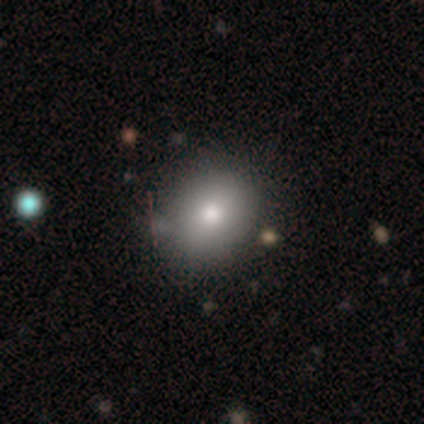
Smooth or featured? 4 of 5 (80%) said smooth. How rounded? 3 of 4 (75%) said in between. Merging? 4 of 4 (100%) said none.